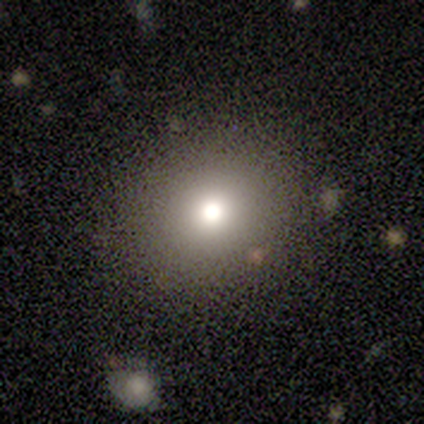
A smooth galaxy with no disk features (67%) that is round (100%).

Vote fractions:
- Smooth or featured? smooth: 67% / star or artifact: 33% / featured or disk: 0%
- How rounded? round: 100% / in between: 0% / cigar-shaped: 0%
- Merging? none: 75% / minor disturbance: 25% / major disturbance: 0% / merger: 0%